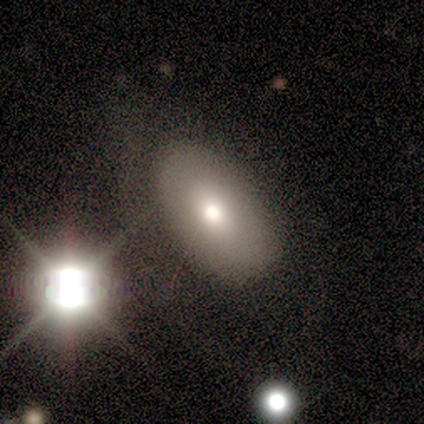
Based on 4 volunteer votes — Q: Smooth or featured?
A: smooth (50%); runner-up: featured or disk (25%)
Q: How rounded?
A: in between (50%); tied with: cigar-shaped (50%)
Q: Merging?
A: none (33%); tied with: minor disturbance (33%); major disturbance (33%)